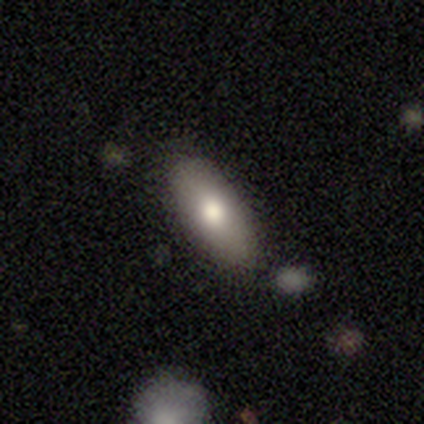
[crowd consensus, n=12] Overall: smooth (92%). How rounded: in between (55%; cigar-shaped 45%). Merging: none (100%).